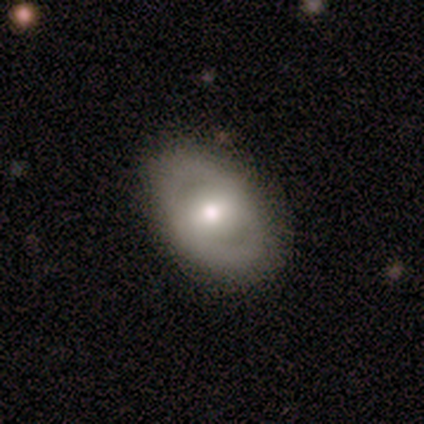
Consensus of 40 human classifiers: This is likely a featured or disk galaxy (68%). It is clearly not viewed edge-on (93%). Bar: possibly weak (56%). Spiral arm pattern: likely no (60%). Central bulge: likely moderate (60%). Merging: clearly none (88%).